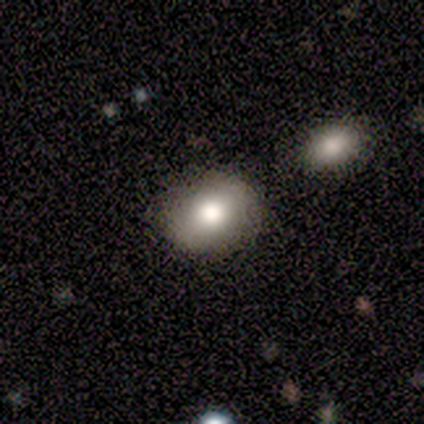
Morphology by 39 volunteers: Smooth or featured: smooth — 82% (featured or disk — 18%)
How rounded: in between — 62% (round — 38%)
Merging: none — 85% (minor disturbance — 5%)